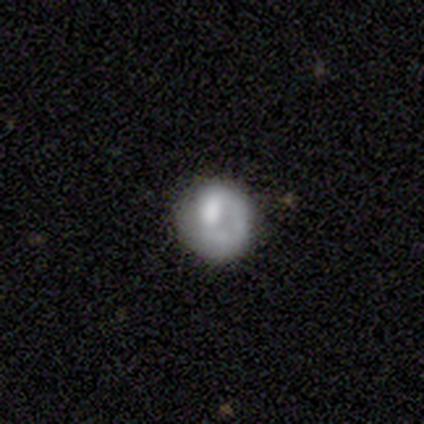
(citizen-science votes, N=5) smooth-or-featured: featured or disk: 60% | smooth: 40% | star or artifact: 0%
  disk-edge-on: no: 100% | yes: 0%
    bar: no: 100% | strong: 0% | weak: 0%
    has-spiral-arms: no: 67% | yes: 33%
    bulge-size: none: 67% | large: 33% | dominant: 0% | moderate: 0% | small: 0%
  merging: none: 40% (tied) | major disturbance: 40% (tied) | minor disturbance: 20% | merger: 0%